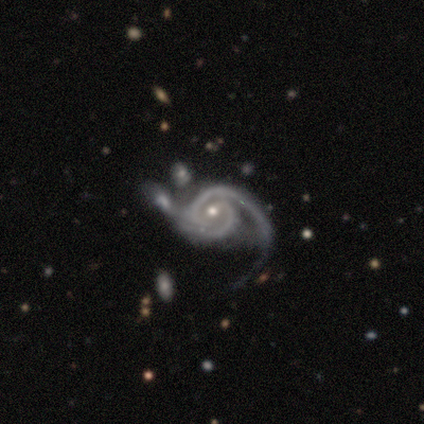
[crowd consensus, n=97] smooth_or_featured: featured or disk (p=0.95) [alt: smooth p=0.04]
disk_edge_on: no (p=0.96) [alt: yes p=0.04]
bar: no (p=0.44) [alt: weak p=0.43]
has_spiral_arms: yes (p=0.99) [alt: no p=0.01]
spiral_winding: tight (p=0.46) [alt: medium p=0.41]
spiral_arm_count: 2 (p=0.68) [alt: 1 p=0.17]
bulge_size: small (p=0.58) [alt: moderate p=0.39]
merging: none (p=0.41) [alt: merger p=0.23]